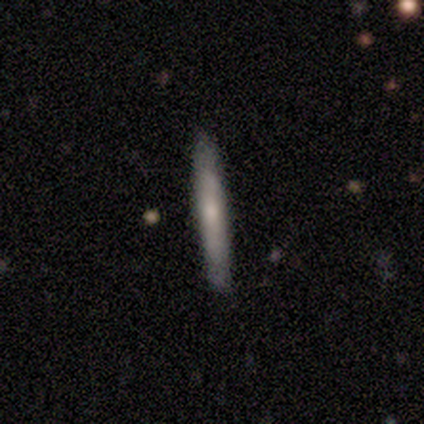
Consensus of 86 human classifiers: smooth_or_featured: smooth (p=0.53) [alt: featured or disk p=0.38]
how_rounded: cigar-shaped (p=0.98) [alt: in between p=0.02]
merging: none (p=0.87) [alt: minor disturbance p=0.09]